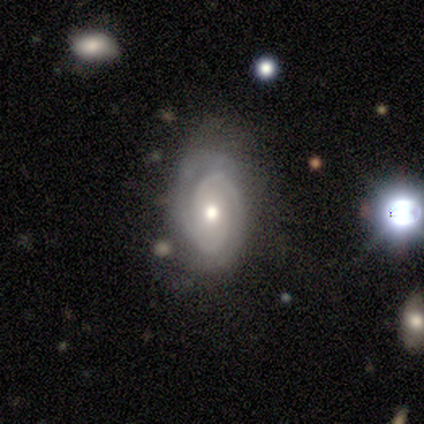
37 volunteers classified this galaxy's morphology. Smooth or featured: featured or disk — 73% (smooth — 14%)
Edge-on disk: no — 100%
Bar: no — 70% (weak — 19%)
Spiral arms: yes — 96% (no — 4%)
Spiral winding: tight — 77% (medium — 23%)
Spiral arm count: 2 — 73% (can't tell — 12%)
Bulge size: moderate — 63% (small — 22%)
Merging: none — 66% (minor disturbance — 25%)